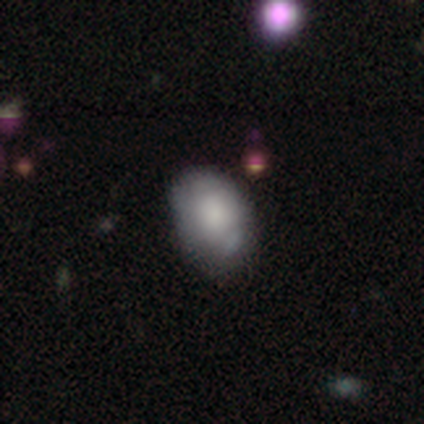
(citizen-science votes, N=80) smooth-or-featured: smooth: 72% | featured or disk: 22% | star or artifact: 5%
  how-rounded: in between: 81% | round: 19% | cigar-shaped: 0%
  merging: none: 30% | minor disturbance: 21% | merger: 11% | major disturbance: 0%